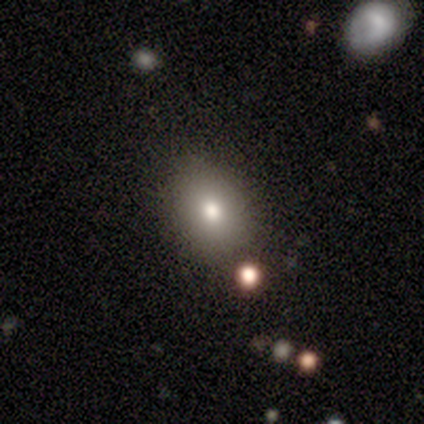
A featured or disk galaxy (60%) with no bar (67%), no spiral arms (100%) and a moderate central bulge (100%). Merging: none (100%).